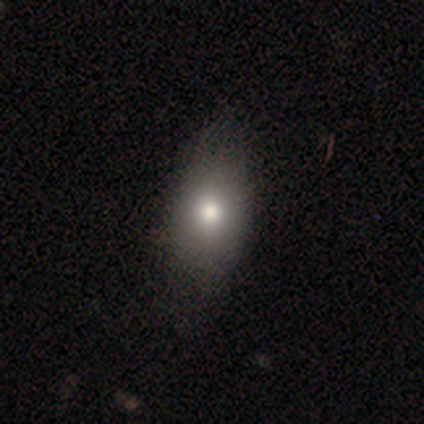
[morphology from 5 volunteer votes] A featured or disk galaxy (60%) viewed edge-on (67%) with a rounded central bulge (100%). Merging: none (40%, tied with minor disturbance).